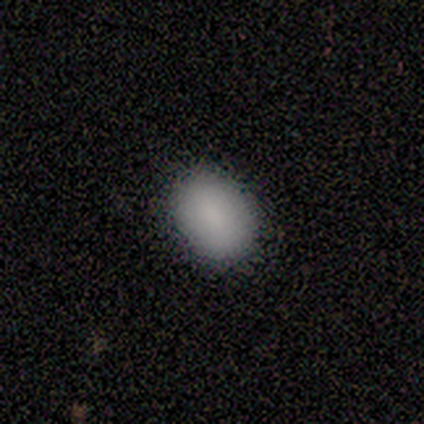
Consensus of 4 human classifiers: This is clearly a smooth galaxy (100%). How rounded: clearly in between (100%). Merging: clearly none (100%).